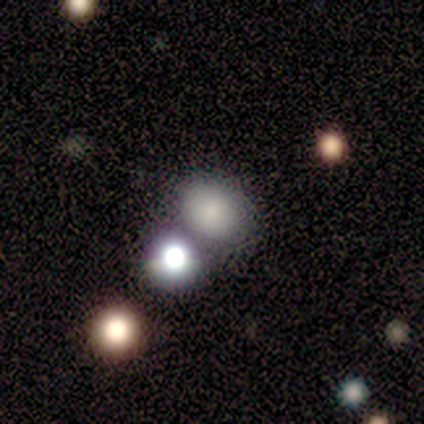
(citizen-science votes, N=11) Volunteers were most divided on "merging": none: 50%, minor disturbance: 25%, merger: 25%, major disturbance: 0%. More confident: how rounded — in between (75%); smooth or featured — smooth (73%).